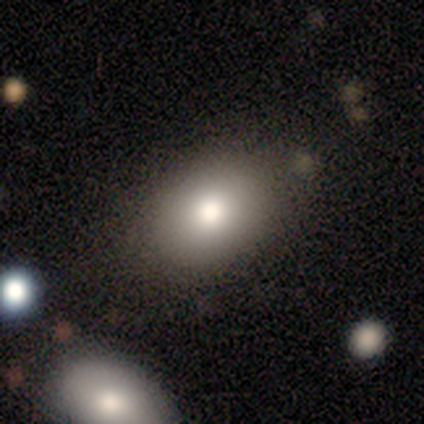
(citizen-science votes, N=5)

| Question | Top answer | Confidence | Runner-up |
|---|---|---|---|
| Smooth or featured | smooth | 60% | featured or disk (20%) |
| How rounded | in between | 100% | — |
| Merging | none | 100% | — |